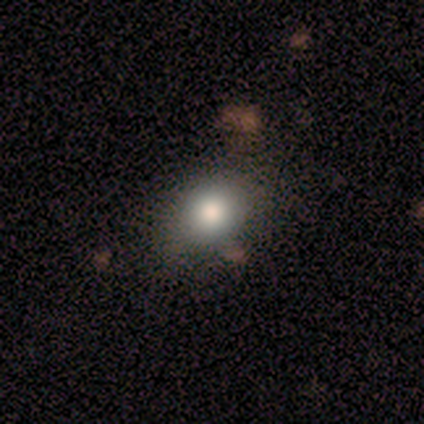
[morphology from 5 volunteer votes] Smooth or featured? 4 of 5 (80%) said smooth. How rounded? 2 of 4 (50%, tied with in between) said round. Merging? 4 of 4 (100%) said none.